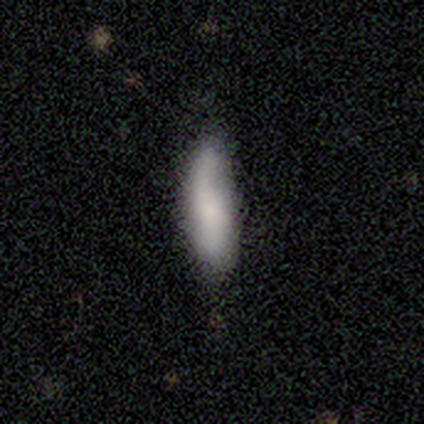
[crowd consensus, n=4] Smooth or featured? 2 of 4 (50%, tied with featured or disk) said smooth. How rounded? 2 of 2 (100%) said cigar-shaped. Merging? 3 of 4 (75%) said none.